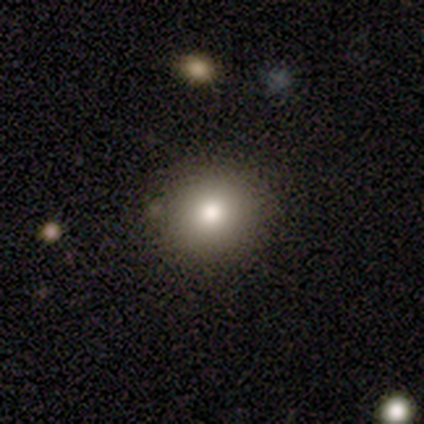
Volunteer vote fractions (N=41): Morphology: type=smooth (85%); roundness=round (83%); merging=none (92%).